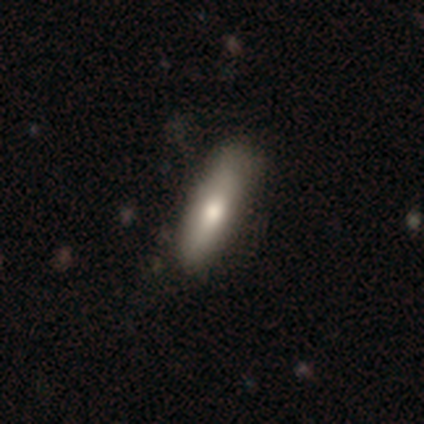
This appears to be a smooth galaxy with no disk features (80%) that is cigar-shaped (60%). Merging: none (40%).